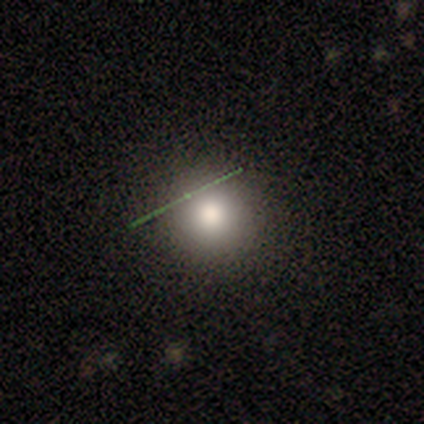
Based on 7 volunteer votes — Overall: smooth (43%; featured or disk 29%). How rounded: round (100%). Merging: none (80%).